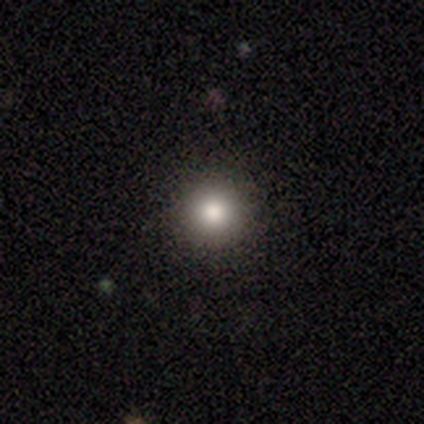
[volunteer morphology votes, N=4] This appears to be a smooth galaxy with no disk features (100%) that is round (100%). Merging: none (100%).